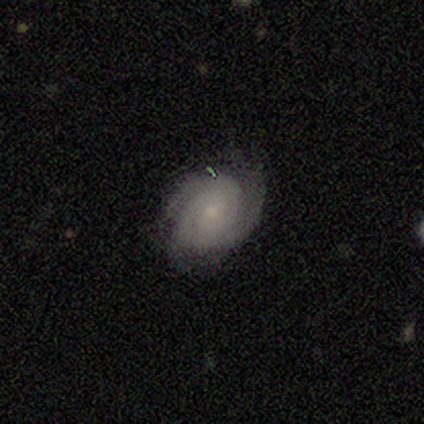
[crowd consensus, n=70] This is clearly a featured or disk galaxy (91%). It is clearly not viewed edge-on (98%). Bar: likely no (78%). Spiral arm pattern: clearly yes (100%). Spiral arm count: marginally 2 (44%). Spiral winding: likely tight (76%). Central bulge: likely small (65%). Merging: likely none (72%).